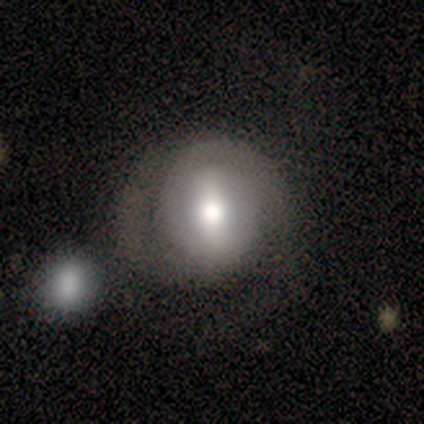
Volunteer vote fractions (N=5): Q: Smooth or featured?
A: featured or disk (80%); runner-up: smooth (20%)
Q: Edge-on disk?
A: no (100%)
Q: Bar?
A: strong (75%); runner-up: no (25%)
Q: Spiral arms?
A: yes (50%); tied with: no (50%)
Q: Spiral winding?
A: medium (50%); tied with: loose (50%)
Q: Spiral arm count?
A: 2 (100%)
Q: Bulge size?
A: moderate (75%); runner-up: small (25%)
Q: Merging?
A: minor disturbance (60%); runner-up: none (20%)